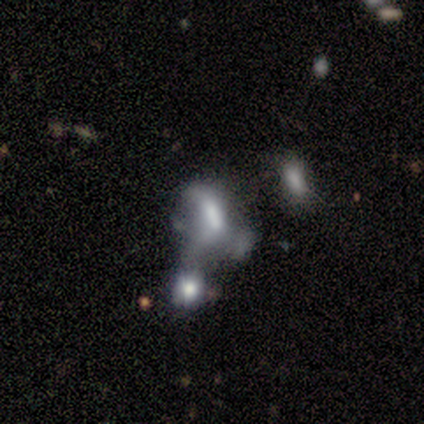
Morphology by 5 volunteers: Smooth or featured: smooth — 80% (featured or disk — 20%)
How rounded: in between — 100%
Merging: merger — 80% (major disturbance — 20%)